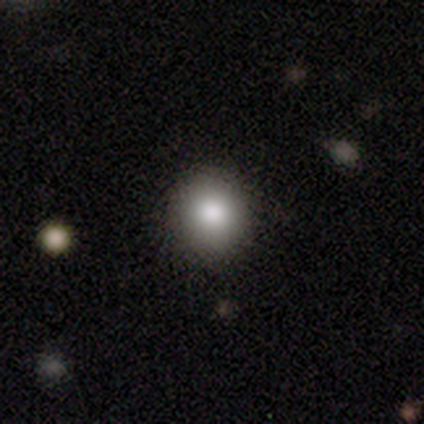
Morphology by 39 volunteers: Smooth or featured?
  - smooth: 90% *
  - featured or disk: 8%
  - star or artifact: 3%
How rounded?
  - round: 94% *
  - in between: 6%
  - cigar-shaped: 0%
Merging?
  - none: 74% *
  - minor disturbance: 3%
  - merger: 3%
  - major disturbance: 0%